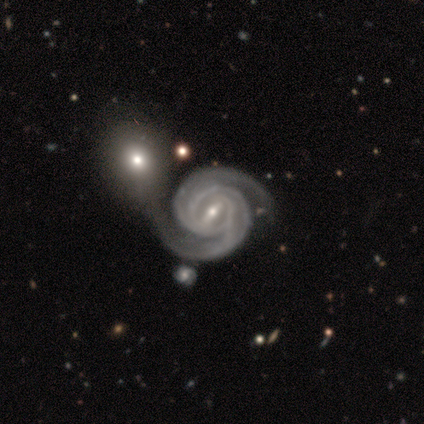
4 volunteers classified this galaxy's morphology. Smooth or featured: featured or disk — 100%
Edge-on disk: no — 100%
Bar: strong — 50% (tied with weak — 50%)
Spiral arms: yes — 100%
Spiral winding: tight — 75% (medium — 25%)
Spiral arm count: 2 — 75% (can't tell — 25%)
Bulge size: moderate — 100%
Merging: merger — 75% (minor disturbance — 25%)